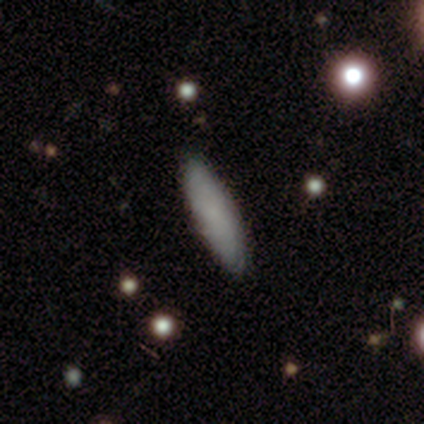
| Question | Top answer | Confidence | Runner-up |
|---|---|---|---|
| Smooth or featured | smooth | 79% | featured or disk (18%) |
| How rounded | cigar-shaped | 61% | in between (39%) |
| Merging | none | 79% | minor disturbance (16%) |